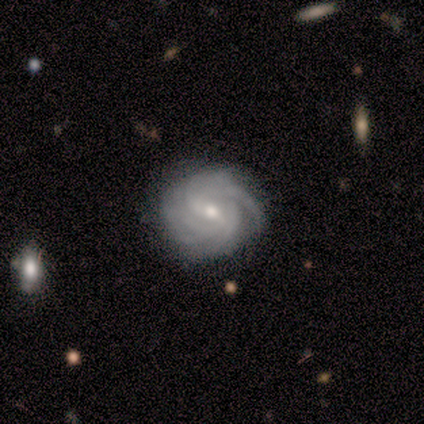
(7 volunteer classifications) Overall: featured or disk (86%). Edge-on disk: no (100%). Bar: no (83%). Spiral arms: yes (83%). Spiral arm count: can't tell (60%; more than 4 40%). Spiral winding: tight (60%; medium 20%). Bulge size: small (67%). Merging: none (57%).